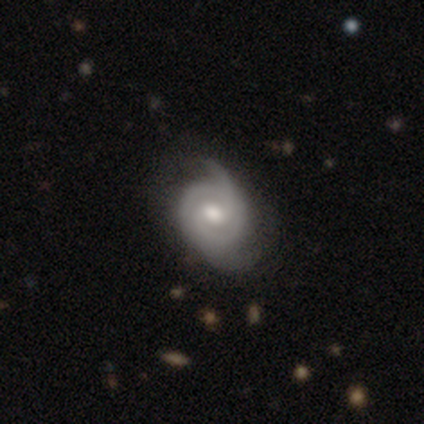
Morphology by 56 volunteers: Q: Smooth or featured?
A: featured or disk (82%); runner-up: smooth (18%)
Q: Edge-on disk?
A: no (98%); runner-up: yes (2%)
Q: Bar?
A: weak (60%); runner-up: no (33%)
Q: Spiral arms?
A: yes (96%); runner-up: no (4%)
Q: Spiral winding?
A: medium (42%); runner-up: tight (40%)
Q: Spiral arm count?
A: 2 (67%); runner-up: can't tell (12%)
Q: Bulge size?
A: moderate (69%); runner-up: large (16%)
Q: Merging?
A: none (48%); runner-up: minor disturbance (29%)